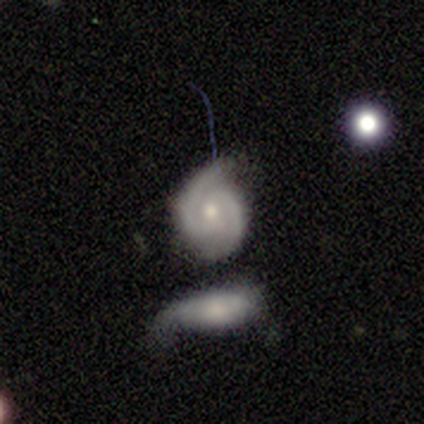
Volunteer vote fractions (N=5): Smooth or featured? featured or disk (60%)
Edge-on disk? no (100%)
Bar? no (67%)
Spiral arms? yes (100%)
Spiral winding? tight (100%)
Spiral arm count? 2 (100%)
Bulge size? small (67%)
Merging? minor disturbance (50%)